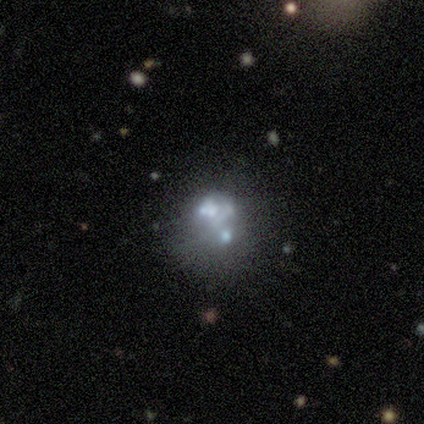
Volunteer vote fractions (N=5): Smooth or featured? 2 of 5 (40%, tied with star or artifact) said featured or disk. Edge-on disk? 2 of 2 (100%) said no. Bar? 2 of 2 (100%) said no. Spiral arms? 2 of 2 (100%) said no. Bulge size? 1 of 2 (50%, tied with none) said moderate. Merging? 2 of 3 (67%) said minor disturbance.